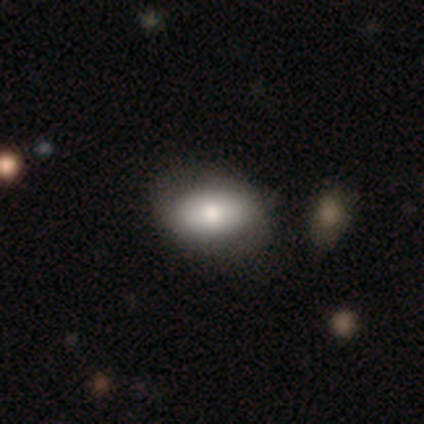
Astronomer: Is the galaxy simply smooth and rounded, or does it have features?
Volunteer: featured or disk — 60%.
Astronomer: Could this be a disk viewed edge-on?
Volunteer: no — 67%.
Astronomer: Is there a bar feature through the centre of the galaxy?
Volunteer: strong — 50%, tied with weak at 50%.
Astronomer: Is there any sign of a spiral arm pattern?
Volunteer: yes — 100%.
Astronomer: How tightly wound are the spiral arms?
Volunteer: tight — 100%.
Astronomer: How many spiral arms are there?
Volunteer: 2 — 100%.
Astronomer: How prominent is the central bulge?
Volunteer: moderate — 100%.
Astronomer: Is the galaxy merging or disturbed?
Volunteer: none — 100%.